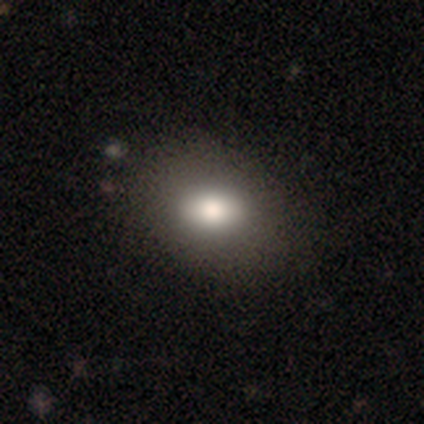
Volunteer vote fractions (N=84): Smooth or featured? smooth (80%)
How rounded? in between (64%)
Merging? none (81%)